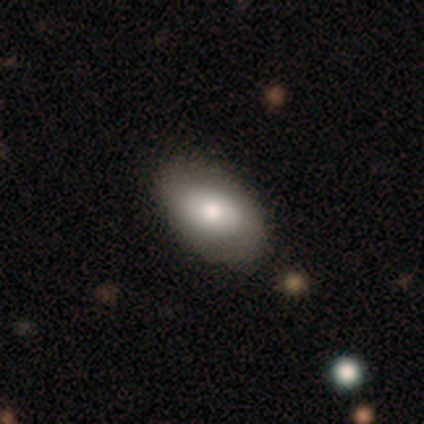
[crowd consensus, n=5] Smooth or featured?
  - smooth: 60% *
  - featured or disk: 40%
  - star or artifact: 0%
How rounded?
  - in between: 100% *
  - round: 0%
  - cigar-shaped: 0%
Merging?
  - none: 60% *
  - minor disturbance: 40%
  - major disturbance: 0%
  - merger: 0%